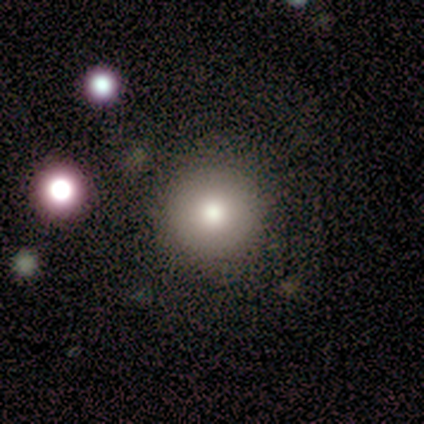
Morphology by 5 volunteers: Smooth or featured? 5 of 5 (100%) said smooth. How rounded? 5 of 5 (100%) said round. Merging? 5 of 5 (100%) said none.